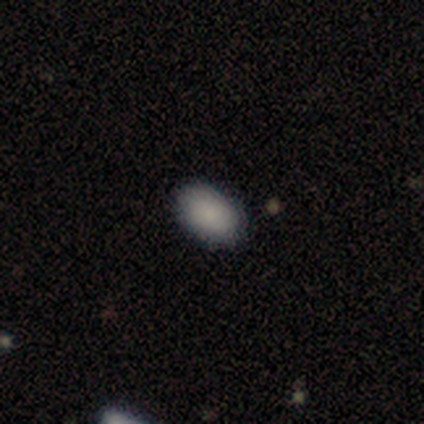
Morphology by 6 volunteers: This appears to be a smooth galaxy with no disk features (100%) that is in between round and cigar-shaped (83%). Merging: none (83%).